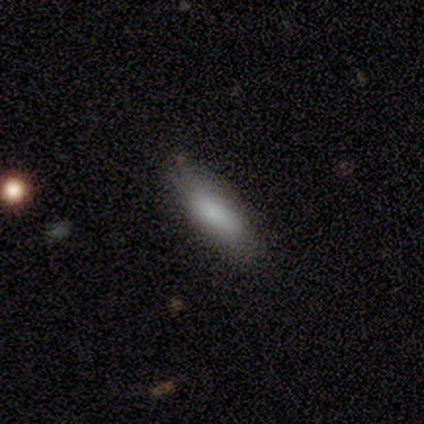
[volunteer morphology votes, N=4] smooth 75%, star or artifact 25%, featured or disk 0%. Down the decision tree: how rounded — in between (67%); merging — none (100%).